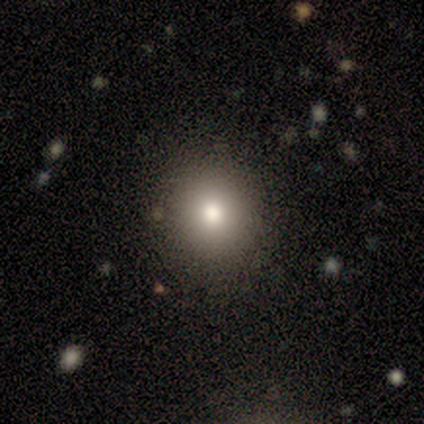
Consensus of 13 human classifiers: Smooth or featured? 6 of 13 (46%) said smooth. How rounded? 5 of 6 (83%) said round. Merging? 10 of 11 (91%) said none.